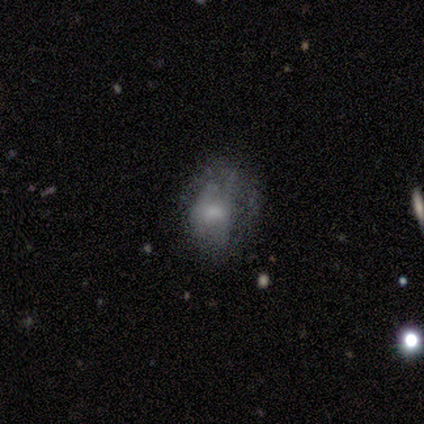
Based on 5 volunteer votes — smooth-or-featured: featured or disk: 60% | smooth: 40% | star or artifact: 0%
  disk-edge-on: no: 100% | yes: 0%
    bar: no: 67% | weak: 33% | strong: 0%
    has-spiral-arms: no: 100% | yes: 0%
    bulge-size: small: 67% | moderate: 33% | dominant: 0% | large: 0% | none: 0%
  merging: major disturbance: 60% | minor disturbance: 40% | none: 0% | merger: 0%